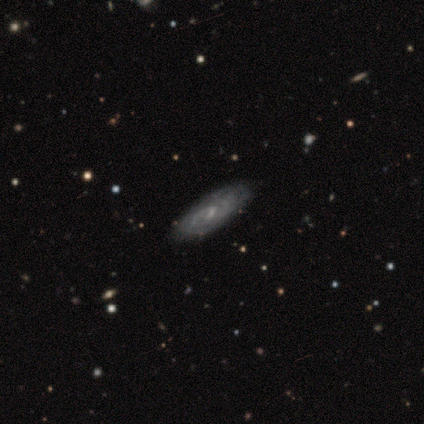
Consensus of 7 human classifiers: A featured or disk galaxy (71%) with a strong bar (33%, tied with weak and no), 2 (100%) tight (67%) spiral arms (100%) and a small central bulge (67%). Merging: none (100%).